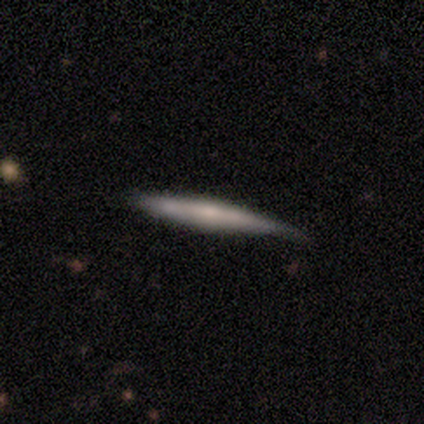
Morphology: type=featured or disk (55%); edge-on=yes (95%); edge-on bulge=rounded (52%); merging=none (68%).